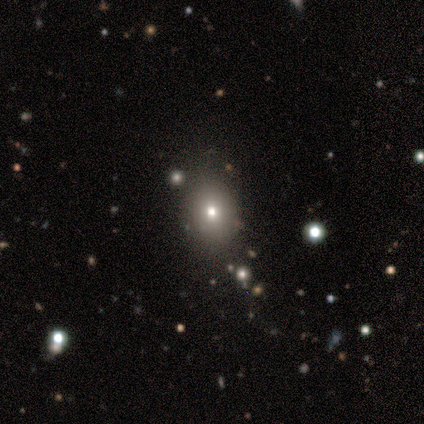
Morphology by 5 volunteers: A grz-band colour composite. It shows a smooth galaxy with no disk features (40%, tied with star or artifact) that is round (50%, tied with in between). Merging: none (100%).